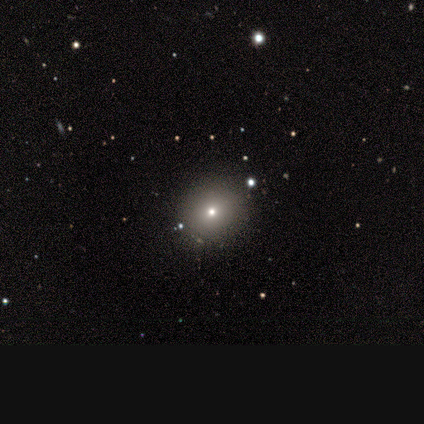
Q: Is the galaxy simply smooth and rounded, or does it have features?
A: smooth — 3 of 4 (75%).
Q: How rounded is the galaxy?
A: in between — 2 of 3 (67%).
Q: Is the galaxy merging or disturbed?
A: none — 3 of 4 (75%).